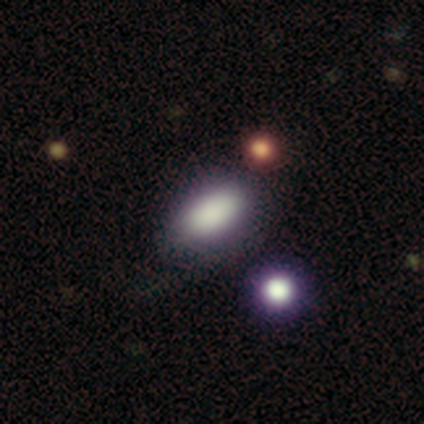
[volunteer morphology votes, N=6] Smooth or featured? 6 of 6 (100%) said smooth. How rounded? 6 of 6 (100%) said in between. Merging? 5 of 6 (83%) said none.